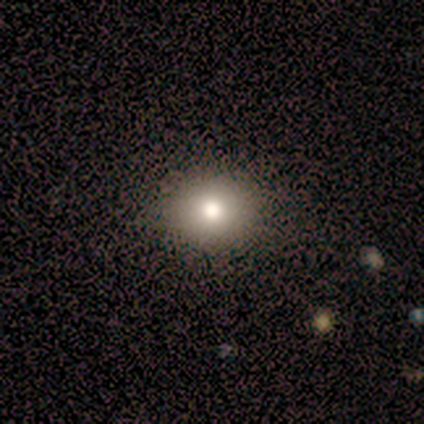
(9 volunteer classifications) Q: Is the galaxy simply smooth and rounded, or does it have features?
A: smooth — 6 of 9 (67%).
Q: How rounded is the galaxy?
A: round — 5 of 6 (83%).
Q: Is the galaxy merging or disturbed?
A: none — 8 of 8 (100%).